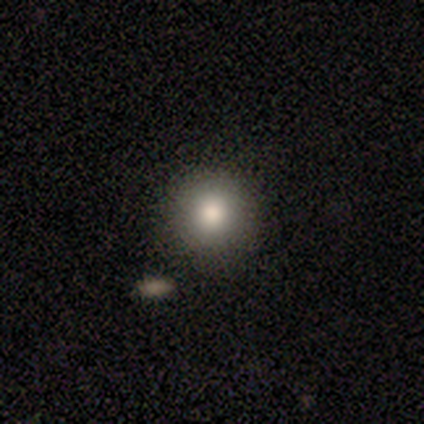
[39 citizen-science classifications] Smooth or featured? 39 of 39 (100%) said smooth. How rounded? 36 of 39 (92%) said round. Merging? 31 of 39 (79%) said none.